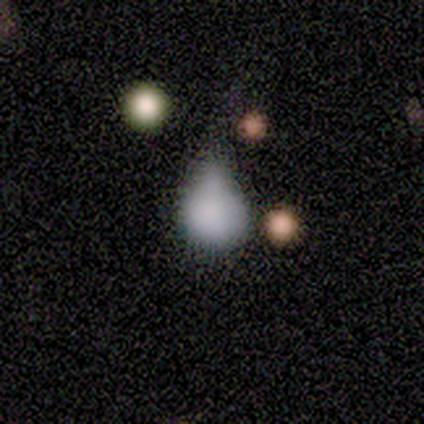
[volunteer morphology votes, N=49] A smooth galaxy with no disk features (82%) that is round (50%, tied with in between).

Vote fractions:
- Smooth or featured? smooth: 82% / featured or disk: 12% / star or artifact: 6%
- How rounded? round: 50% (tied) / in between: 50% (tied) / cigar-shaped: 0%
- Merging? minor disturbance: 54% / major disturbance: 30% / none: 11% / merger: 4%